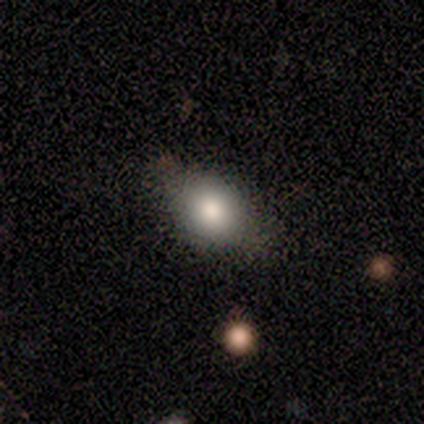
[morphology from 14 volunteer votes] Smooth or featured? 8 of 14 (57%) said smooth. How rounded? 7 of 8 (88%) said in between. Merging? 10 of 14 (71%) said none.